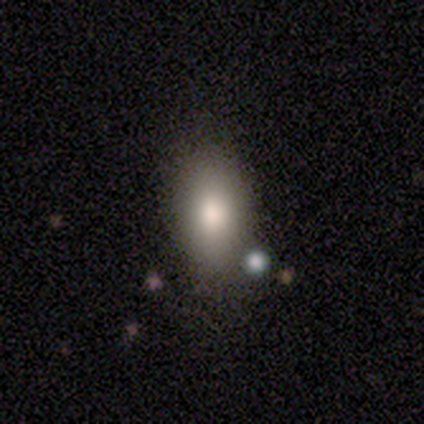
Volunteers were most divided on "merging": none: 66%, minor disturbance: 16%, merger: 13%, major disturbance: 5%. More confident: how rounded — in between (94%); smooth or featured — smooth (90%).